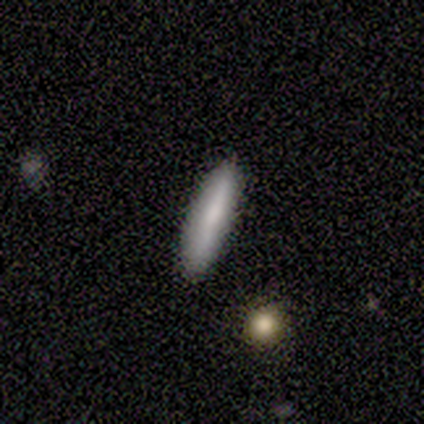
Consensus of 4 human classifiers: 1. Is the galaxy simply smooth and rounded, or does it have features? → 50% smooth (tied), 50% featured or disk (tied), 0% star or artifact.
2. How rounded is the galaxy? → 100% cigar-shaped, 0% round, 0% in between.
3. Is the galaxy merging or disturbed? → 75% none, 25% minor disturbance, 0% major disturbance, 0% merger.